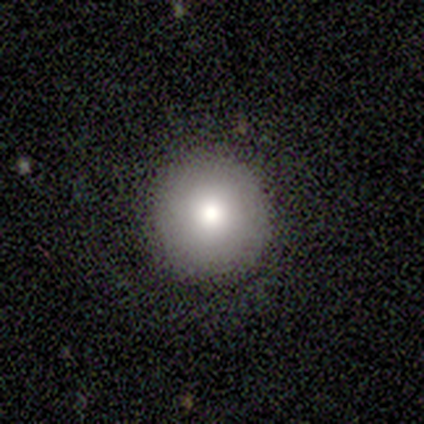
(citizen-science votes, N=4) A smooth galaxy with no disk features (100%) that is round (100%).

Vote fractions:
- Smooth or featured? smooth: 100% / featured or disk: 0% / star or artifact: 0%
- How rounded? round: 100% / in between: 0% / cigar-shaped: 0%
- Merging? none: 75% / minor disturbance: 25% / major disturbance: 0% / merger: 0%